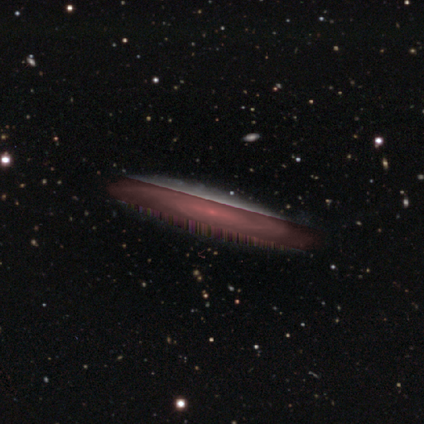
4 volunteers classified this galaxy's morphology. Smooth or featured?
  - featured or disk: 50% *
  - smooth: 25%
  - star or artifact: 25%
Edge-on disk?
  - yes: 100% *
  - no: 0%
Edge-on bulge?
  - boxy: 50% * (tied)
  - none: 50% * (tied)
  - rounded: 0%
Merging?
  - none: 100% *
  - minor disturbance: 0%
  - major disturbance: 0%
  - merger: 0%